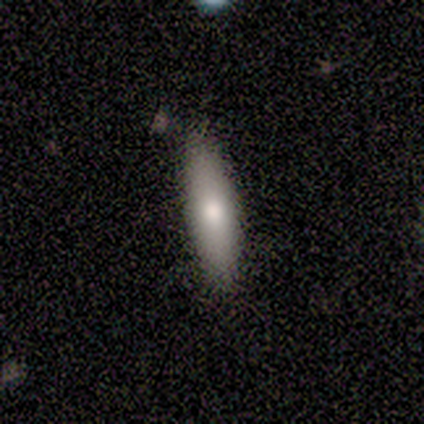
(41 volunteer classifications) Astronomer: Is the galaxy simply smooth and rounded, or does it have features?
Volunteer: smooth — 68%.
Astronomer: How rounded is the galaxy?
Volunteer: cigar-shaped — 64%.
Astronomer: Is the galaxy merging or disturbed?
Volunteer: none — 92%.